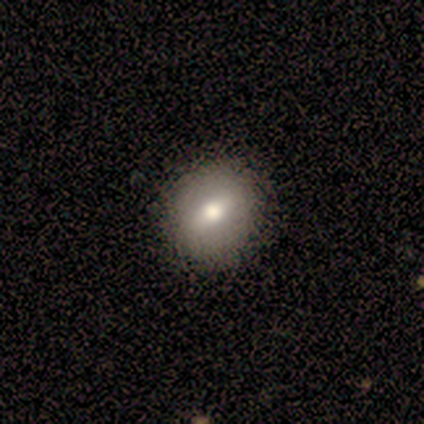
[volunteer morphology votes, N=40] A smooth galaxy with no disk features (50%) that is round (85%).

Vote fractions:
- Smooth or featured? smooth: 50% / featured or disk: 40% / star or artifact: 10%
- How rounded? round: 85% / in between: 10% / cigar-shaped: 5%
- Merging? none: 69% / major disturbance: 6% / minor disturbance: 3% / merger: 3%